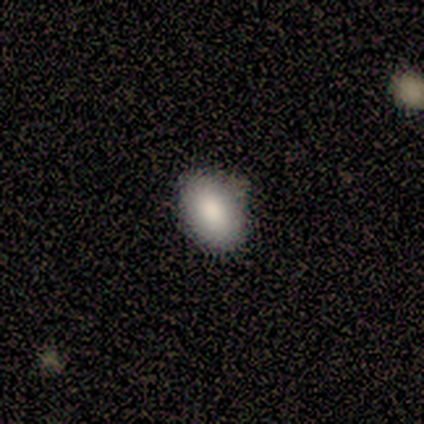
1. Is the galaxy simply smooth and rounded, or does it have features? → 100% smooth, 0% featured or disk, 0% star or artifact.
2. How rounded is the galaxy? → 100% in between, 0% round, 0% cigar-shaped.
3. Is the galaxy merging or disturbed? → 80% none, 20% minor disturbance, 0% major disturbance, 0% merger.